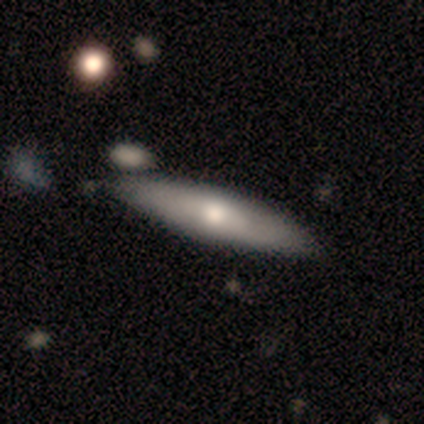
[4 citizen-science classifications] A smooth galaxy with no disk features (75%) that is cigar-shaped (67%). Merging: none (100%).